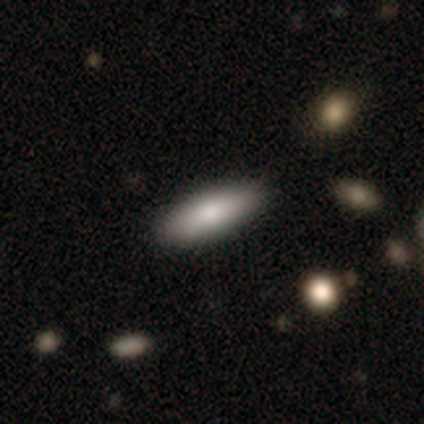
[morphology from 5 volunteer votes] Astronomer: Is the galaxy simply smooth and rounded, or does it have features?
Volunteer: smooth — 80%.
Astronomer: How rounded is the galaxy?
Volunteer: cigar-shaped — 75%.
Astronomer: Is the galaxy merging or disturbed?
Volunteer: none — 60% (runner-up: minor disturbance, 40%).